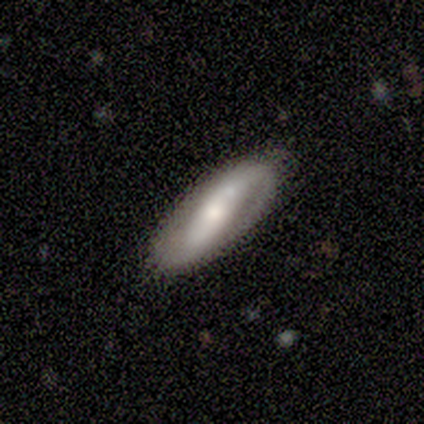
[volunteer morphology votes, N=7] Smooth or featured: featured or disk — 57% (smooth — 43%)
Edge-on disk: no — 75% (yes — 25%)
Bar: strong — 67% (weak — 33%)
Spiral arms: yes — 100%
Spiral winding: tight — 33% (tied with medium — 33%; loose — 33%)
Spiral arm count: 2 — 100%
Bulge size: large — 33% (tied with moderate — 33%; small — 33%)
Merging: none — 43% (minor disturbance — 29%)